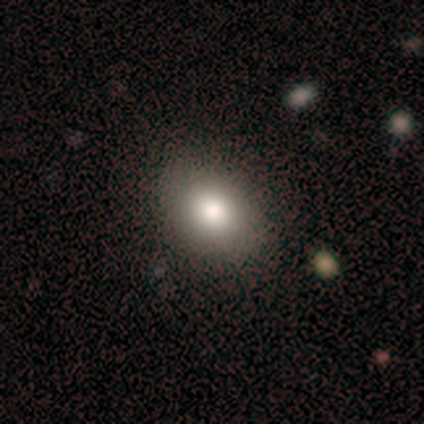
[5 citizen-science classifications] A smooth galaxy with no disk features (100%) that is round (60%). Merging: none (100%).